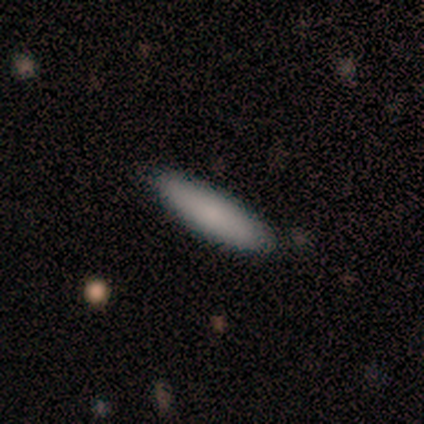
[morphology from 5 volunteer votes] Smooth or featured? smooth (100%)
How rounded? cigar-shaped (100%)
Merging? none (100%)